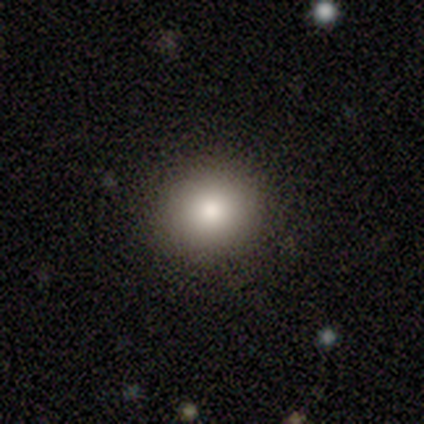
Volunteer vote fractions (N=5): A smooth galaxy with no disk features (60%) that is round (100%). Merging: none (100%).